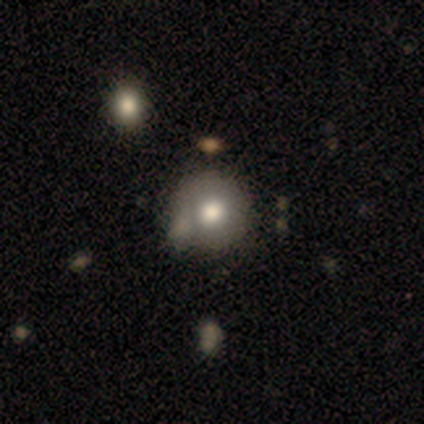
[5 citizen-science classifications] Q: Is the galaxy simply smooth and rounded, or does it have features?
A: smooth — 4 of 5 (80%).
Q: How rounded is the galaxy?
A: round — 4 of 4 (100%).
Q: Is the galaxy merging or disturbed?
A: none — 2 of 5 (40%, tied with major disturbance).